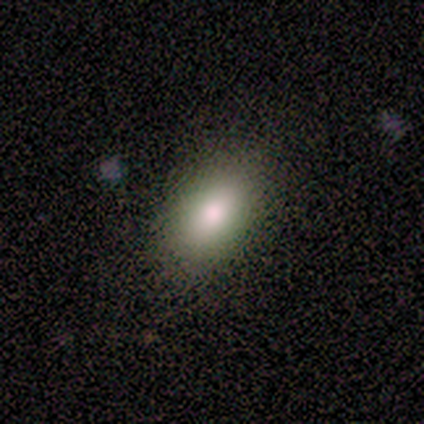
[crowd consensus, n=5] Smooth or featured?
  - smooth: 100% *
  - featured or disk: 0%
  - star or artifact: 0%
How rounded?
  - in between: 100% *
  - round: 0%
  - cigar-shaped: 0%
Merging?
  - none: 80% *
  - minor disturbance: 20%
  - major disturbance: 0%
  - merger: 0%